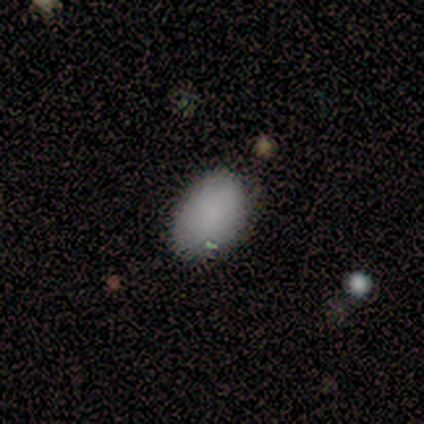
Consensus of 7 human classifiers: This is possibly a smooth galaxy (57%). How rounded: clearly in between (100%). Merging: clearly none (83%).